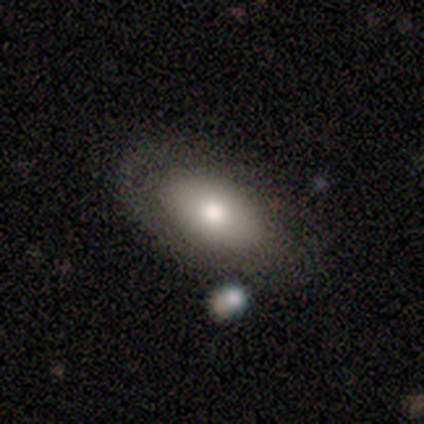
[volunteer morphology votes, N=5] A smooth galaxy with no disk features (60%) that is in between round and cigar-shaped (67%). Merging: none (40%, tied with minor disturbance).